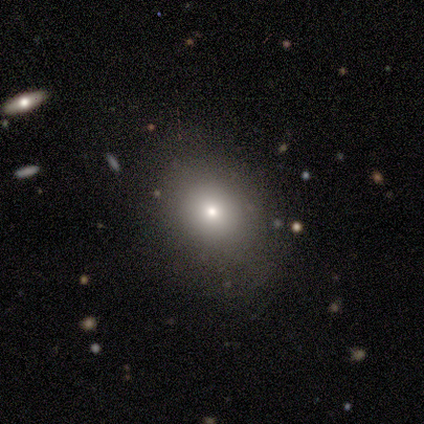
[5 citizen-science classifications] Smooth or featured? 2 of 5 (40%, tied with star or artifact) said smooth. How rounded? 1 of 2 (50%, tied with in between) said round. Merging? 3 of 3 (100%) said none.